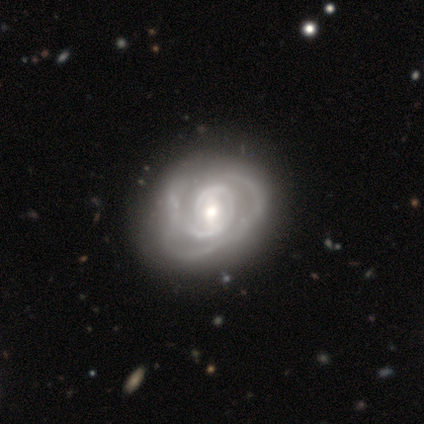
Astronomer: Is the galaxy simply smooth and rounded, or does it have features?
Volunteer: featured or disk — 100%.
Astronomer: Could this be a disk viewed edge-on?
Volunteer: no — 100%.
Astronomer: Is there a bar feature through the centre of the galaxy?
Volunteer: no — 75%.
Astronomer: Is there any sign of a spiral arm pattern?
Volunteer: yes — 100%.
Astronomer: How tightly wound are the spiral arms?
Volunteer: medium — 50%.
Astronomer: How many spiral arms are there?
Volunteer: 2 — 50%.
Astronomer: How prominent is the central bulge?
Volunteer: moderate — 75%.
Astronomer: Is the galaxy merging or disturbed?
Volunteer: none — 75%.